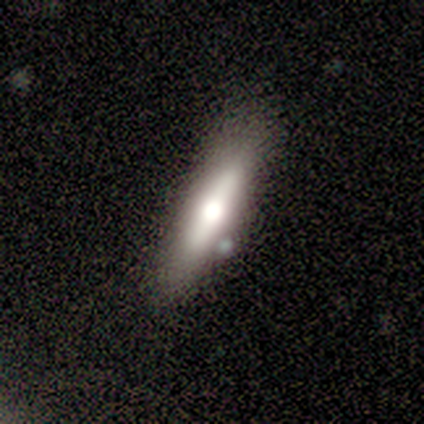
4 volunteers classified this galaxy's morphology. A smooth galaxy with no disk features (50%, tied with featured or disk) that is cigar-shaped (100%). Merging: none (75%).